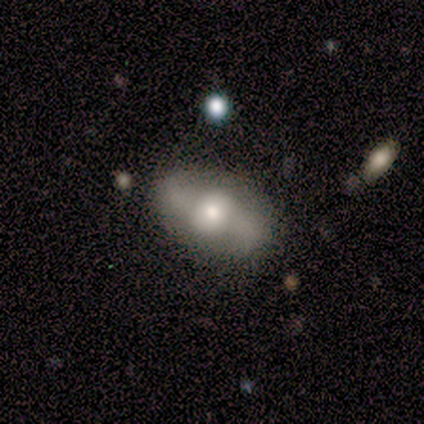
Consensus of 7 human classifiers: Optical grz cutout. It shows a featured or disk galaxy (71%) with no bar (100%), 2 (100%) loose (67%) spiral arms (60%) and a large central bulge (40%, tied with moderate). Merging: none (57%).